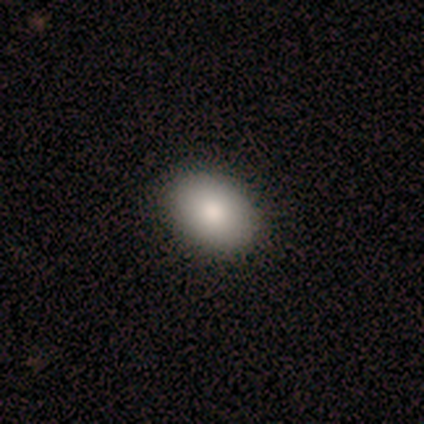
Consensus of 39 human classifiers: Q: Smooth or featured?
A: smooth (87%); runner-up: star or artifact (8%)
Q: How rounded?
A: in between (85%); runner-up: round (15%)
Q: Merging?
A: none (97%); runner-up: merger (3%)